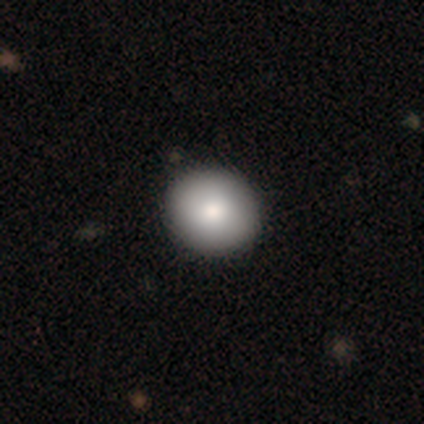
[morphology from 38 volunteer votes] smooth-or-featured: smooth: 89% | featured or disk: 11% | star or artifact: 0%
  how-rounded: round: 94% | in between: 6% | cigar-shaped: 0%
  merging: none: 79% | minor disturbance: 3% | major disturbance: 3% | merger: 0%